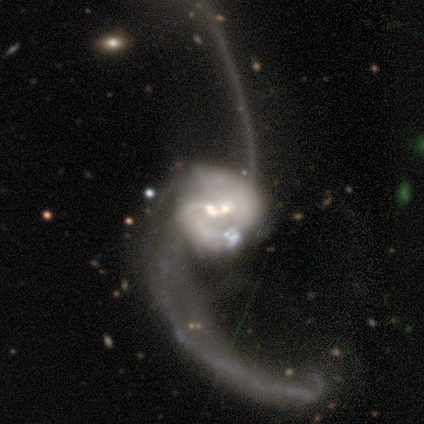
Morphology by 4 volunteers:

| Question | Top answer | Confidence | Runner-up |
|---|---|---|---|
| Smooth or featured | featured or disk | 100% | — |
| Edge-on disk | no | 100% | — |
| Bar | weak | 50% | strong (25%) |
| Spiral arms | yes | 100% | — |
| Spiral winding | loose | 100% | — |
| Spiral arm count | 2 | 100% | — |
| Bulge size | large | 50% | tied: small (50%) |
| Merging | merger | 50% | none (25%) |